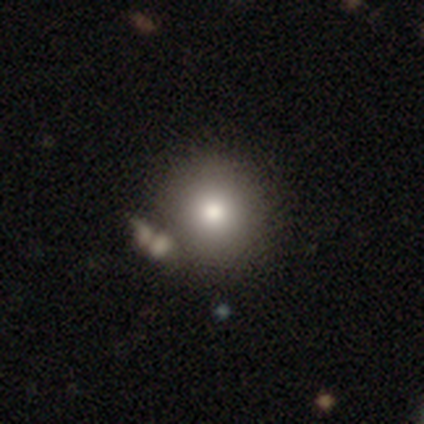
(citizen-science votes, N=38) Smooth or featured? smooth (89%)
How rounded? round (88%)
Merging? none (69%)